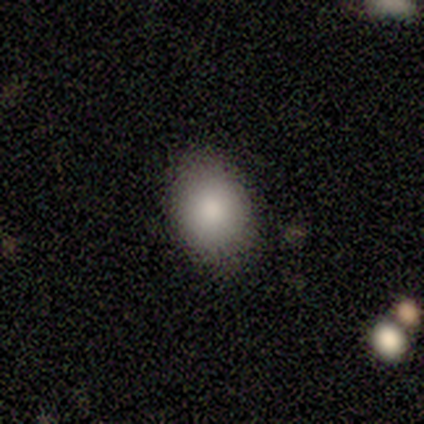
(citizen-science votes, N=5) Smooth or featured? 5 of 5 (100%) said smooth. How rounded? 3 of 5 (60%) said round. Merging? 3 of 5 (60%) said none.